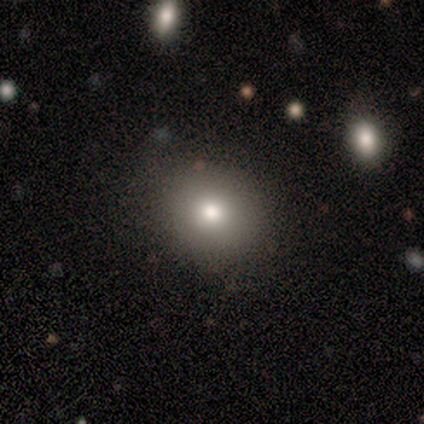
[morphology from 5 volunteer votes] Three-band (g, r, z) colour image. It shows a smooth galaxy with no disk features (80%) that is round (100%). Merging: none (75%).